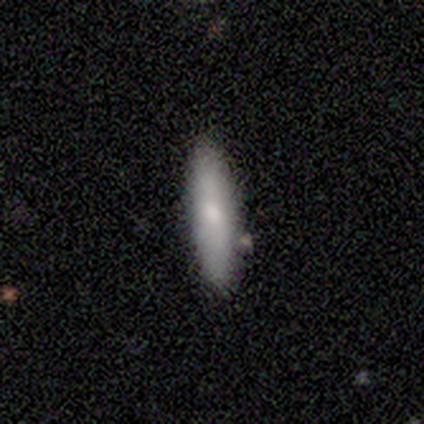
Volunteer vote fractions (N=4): smooth 50% (tied), featured or disk 50% (tied), star or artifact 0%. Down the decision tree: how rounded — cigar-shaped (100%); merging — none (50%).